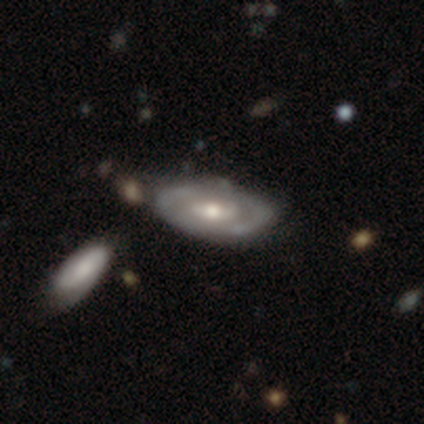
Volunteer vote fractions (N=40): Smooth or featured?
  - featured or disk: 78% *
  - smooth: 20%
  - star or artifact: 2%
Edge-on disk?
  - no: 97% *
  - yes: 3%
Bar?
  - no: 60% *
  - weak: 33%
  - strong: 7%
Spiral arms?
  - yes: 57% *
  - no: 43%
Spiral winding?
  - medium: 41% *
  - tight: 29%
  - loose: 29%
Spiral arm count?
  - can't tell: 53% *
  - 2: 47%
  - 1: 0%
  - 3: 0%
  - 4: 0%
  - more than 4: 0%
Bulge size?
  - moderate: 63% *
  - small: 30%
  - large: 7%
  - dominant: 0%
  - none: 0%
Merging?
  - none: 41% *
  - minor disturbance: 15%
  - major disturbance: 8%
  - merger: 8%